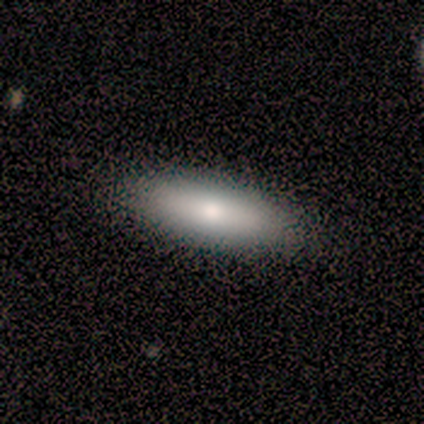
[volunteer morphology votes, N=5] smooth_or_featured: smooth (p=1.00)
how_rounded: in between (p=0.80) [alt: cigar-shaped p=0.20]
merging: none (p=0.80) [alt: minor disturbance p=0.20]